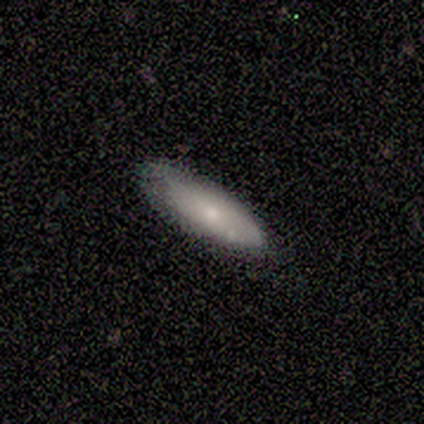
smooth-or-featured: smooth: 64% | featured or disk: 36% | star or artifact: 0%
  how-rounded: in between: 57% | cigar-shaped: 43% | round: 0%
  merging: none: 73% | minor disturbance: 27% | major disturbance: 0% | merger: 0%